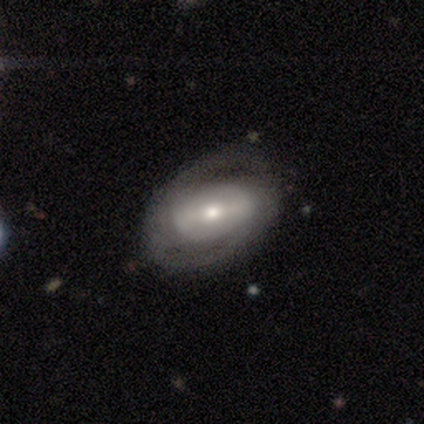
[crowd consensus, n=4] featured or disk 75%, star or artifact 25%, smooth 0%. Down the decision tree: edge-on disk — no (100%); bar — strong (100%); spiral arms — yes (67%); spiral arm count — 2 (50%, tied with can't tell); spiral winding — tight (100%); bulge size — moderate (100%); merging — none (33%, tied with minor disturbance and major disturbance).